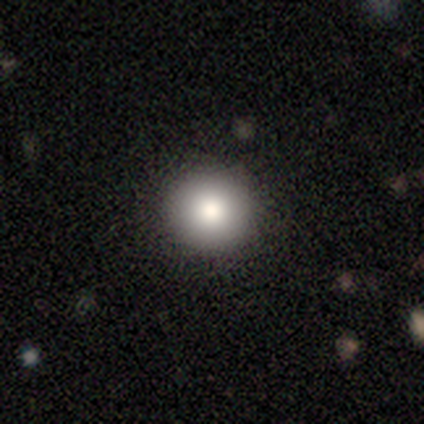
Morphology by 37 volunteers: Overall: smooth (92%). How rounded: round (97%). Merging: none (94%).